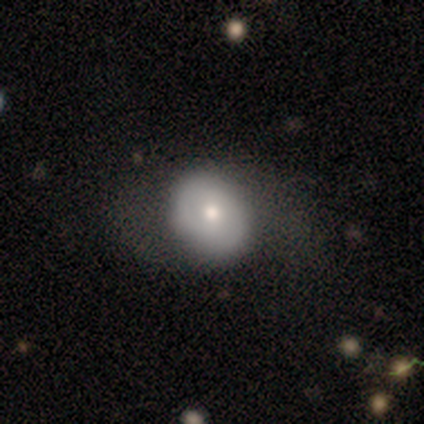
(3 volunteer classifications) Smooth or featured? 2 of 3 (67%) said featured or disk. Edge-on disk? 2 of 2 (100%) said no. Bar? 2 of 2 (100%) said no. Spiral arms? 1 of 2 (50%, tied with no) said yes. Spiral winding? 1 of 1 (100%) said loose. Spiral arm count? 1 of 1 (100%) said 2. Bulge size? 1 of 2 (50%, tied with small) said moderate. Merging? 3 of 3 (100%) said none.